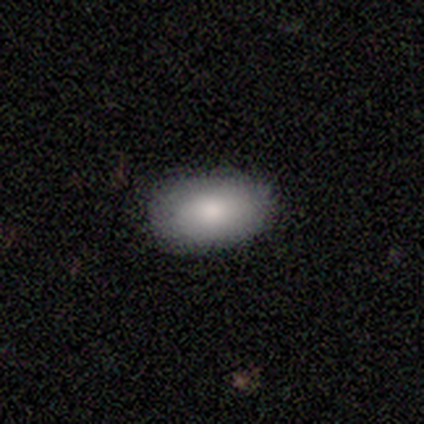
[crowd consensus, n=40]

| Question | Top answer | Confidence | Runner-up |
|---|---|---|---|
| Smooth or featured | smooth | 82% | featured or disk (15%) |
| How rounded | in between | 97% | round (3%) |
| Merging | none | 87% | minor disturbance (8%) |